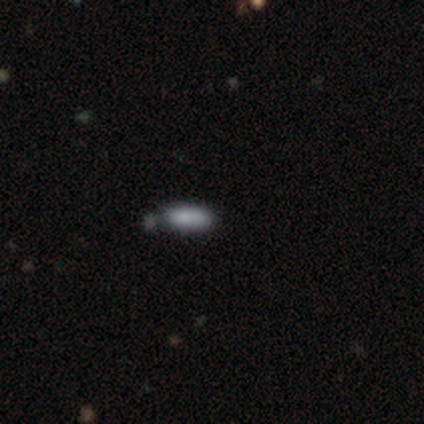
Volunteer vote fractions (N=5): A smooth galaxy with no disk features (40%, tied with star or artifact) that is cigar-shaped (100%).

Vote fractions:
- Smooth or featured? smooth: 40% (tied) / star or artifact: 40% (tied) / featured or disk: 20%
- How rounded? cigar-shaped: 100% / round: 0% / in between: 0%
- Merging? none: 67% / minor disturbance: 33% / major disturbance: 0% / merger: 0%